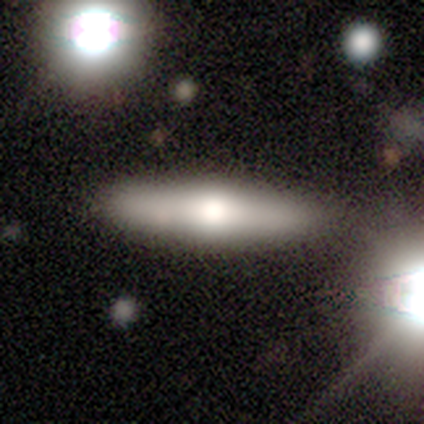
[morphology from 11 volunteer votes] Q: Smooth or featured?
A: smooth (55%); runner-up: featured or disk (45%)
Q: How rounded?
A: cigar-shaped (100%)
Q: Merging?
A: none (82%); runner-up: minor disturbance (18%)